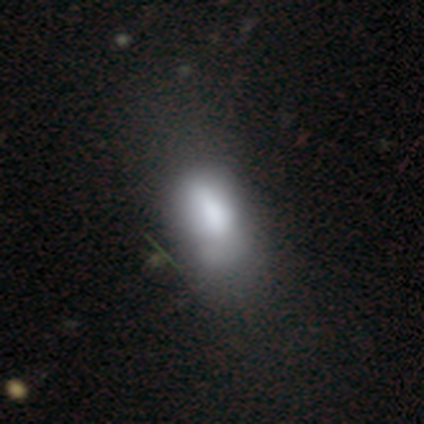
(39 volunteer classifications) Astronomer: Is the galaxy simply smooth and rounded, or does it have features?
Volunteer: smooth — 79%.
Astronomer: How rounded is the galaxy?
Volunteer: in between — 94%.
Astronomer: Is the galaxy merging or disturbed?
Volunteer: none — 41%.